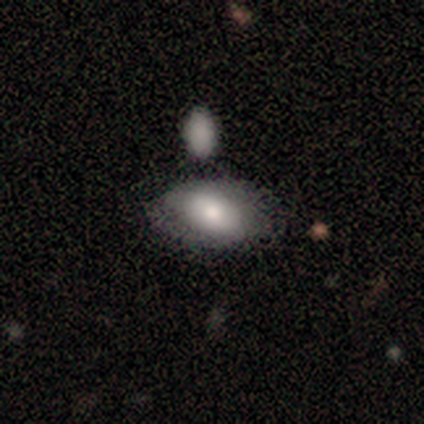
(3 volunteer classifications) Q: Smooth or featured?
A: smooth (67%); runner-up: featured or disk (33%)
Q: How rounded?
A: in between (100%)
Q: Merging?
A: none (67%); runner-up: major disturbance (33%)